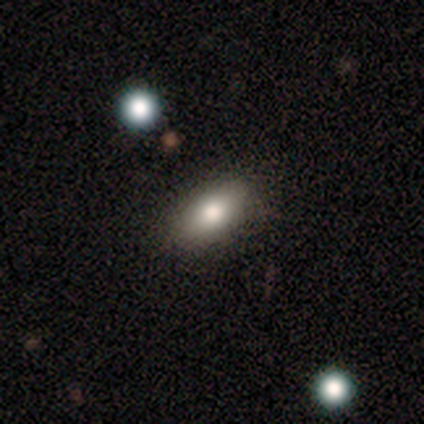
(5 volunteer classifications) smooth_or_featured: smooth (p=1.00)
how_rounded: in between (p=1.00)
merging: none (p=0.80) [alt: minor disturbance p=0.20]